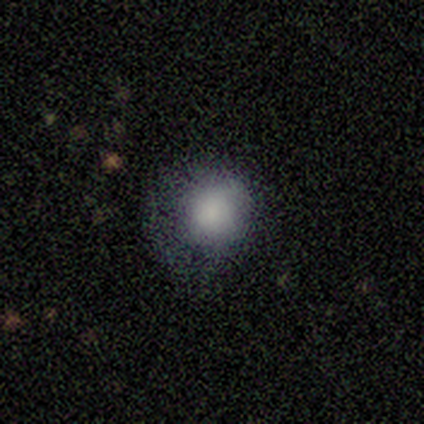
A smooth galaxy with no disk features (80%) that is round (75%).

Vote fractions:
- Smooth or featured? smooth: 80% / star or artifact: 20% / featured or disk: 0%
- How rounded? round: 75% / in between: 25% / cigar-shaped: 0%
- Merging? none: 50% / minor disturbance: 25% / major disturbance: 25% / merger: 0%